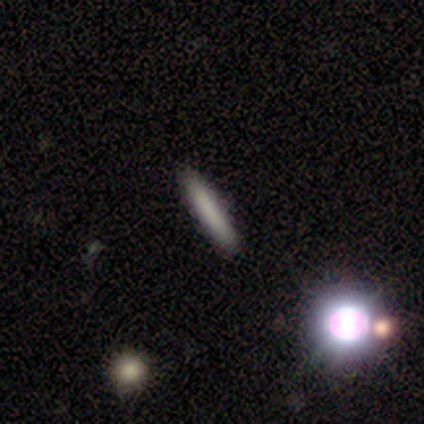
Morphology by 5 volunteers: A smooth galaxy with no disk features (80%) that is in between round and cigar-shaped (50%, tied with cigar-shaped).

Vote fractions:
- Smooth or featured? smooth: 80% / star or artifact: 20% / featured or disk: 0%
- How rounded? in between: 50% (tied) / cigar-shaped: 50% (tied) / round: 0%
- Merging? none: 100% / minor disturbance: 0% / major disturbance: 0% / merger: 0%